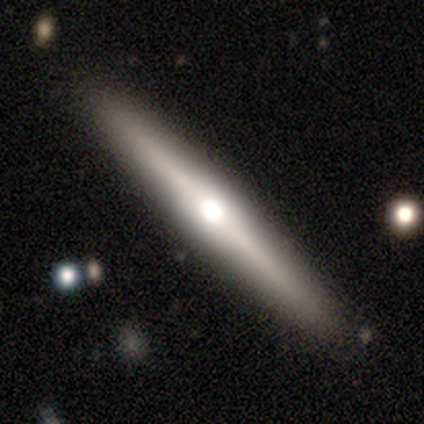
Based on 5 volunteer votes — Smooth or featured? smooth (60%)
How rounded? cigar-shaped (100%)
Merging? none (100%)